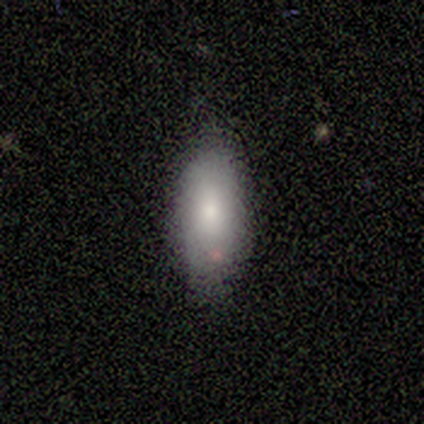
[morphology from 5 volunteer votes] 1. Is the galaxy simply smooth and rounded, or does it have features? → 80% smooth, 20% star or artifact, 0% featured or disk.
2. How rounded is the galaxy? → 100% in between, 0% round, 0% cigar-shaped.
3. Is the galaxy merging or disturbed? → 100% none, 0% minor disturbance, 0% major disturbance, 0% merger.